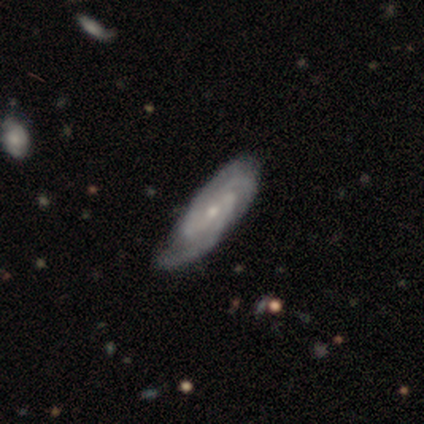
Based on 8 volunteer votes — Q: Smooth or featured?
A: featured or disk (88%); runner-up: star or artifact (12%)
Q: Edge-on disk?
A: no (100%)
Q: Bar?
A: weak (57%); runner-up: no (29%)
Q: Spiral arms?
A: yes (100%)
Q: Spiral winding?
A: tight (57%); runner-up: medium (43%)
Q: Spiral arm count?
A: 3 (43%); tied with: can't tell (43%)
Q: Bulge size?
A: small (57%); runner-up: moderate (29%)
Q: Merging?
A: none (86%); runner-up: merger (14%)